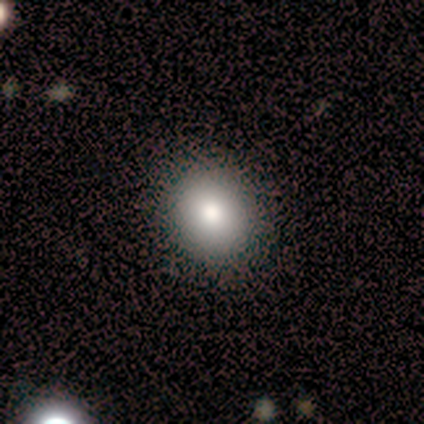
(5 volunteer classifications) Smooth or featured?
  - smooth: 100% *
  - featured or disk: 0%
  - star or artifact: 0%
How rounded?
  - round: 60% *
  - in between: 40%
  - cigar-shaped: 0%
Merging?
  - none: 80% *
  - minor disturbance: 20%
  - major disturbance: 0%
  - merger: 0%